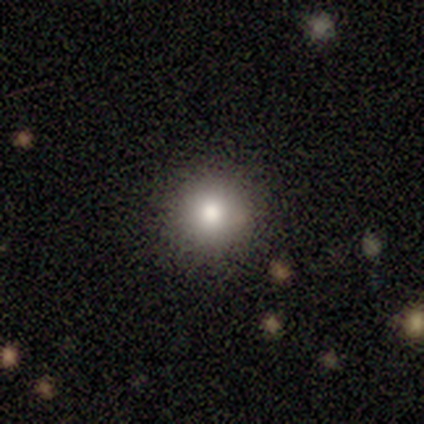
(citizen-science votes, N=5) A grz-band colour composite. It shows a smooth galaxy with no disk features (80%) that is round (100%). Merging: none (75%).